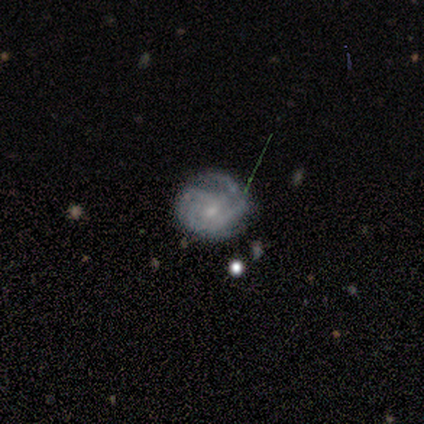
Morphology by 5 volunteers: Volunteers were most divided on "spiral arm count": 4: 50%, 3: 25%, can't tell: 25%, 1: 0%, 2: 0%, more than 4: 0%. More confident: edge-on disk — no (100%); spiral arms — yes (100%); merging — none (100%); smooth or featured — featured or disk (80%); bar — no (75%); spiral winding — tight (75%); bulge size — moderate (75%).